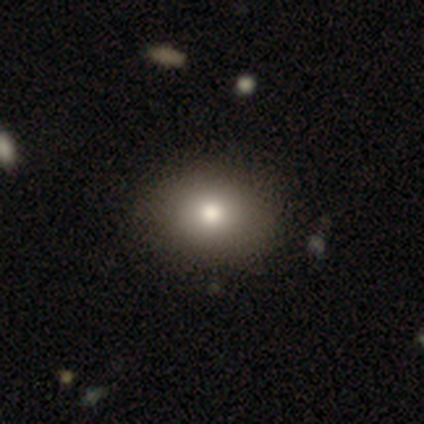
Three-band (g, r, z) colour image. It shows a smooth galaxy with no disk features (81%) that is round (51%). Merging: none (94%).